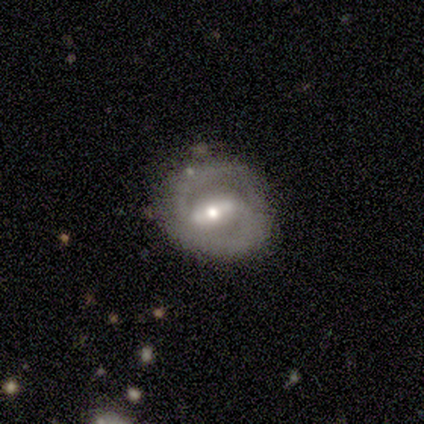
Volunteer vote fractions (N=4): Volunteers were most divided on "spiral winding" (2-way tie): tight: 50%, medium: 50%, loose: 0%. More confident: smooth or featured — featured or disk (100%); edge-on disk — no (100%); bar — strong (100%); spiral arms — yes (100%); spiral arm count — 2 (100%); bulge size — moderate (100%); merging — none (100%).